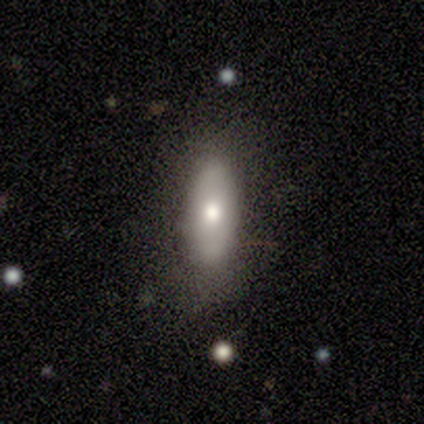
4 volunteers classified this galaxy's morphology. A smooth galaxy with no disk features (75%) that is in between round and cigar-shaped (100%).

Vote fractions:
- Smooth or featured? smooth: 75% / featured or disk: 25% / star or artifact: 0%
- How rounded? in between: 100% / round: 0% / cigar-shaped: 0%
- Merging? none: 100% / minor disturbance: 0% / major disturbance: 0% / merger: 0%